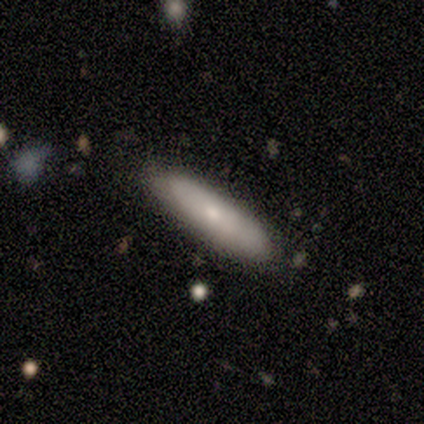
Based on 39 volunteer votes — A smooth galaxy with no disk features (54%) that is in between round and cigar-shaped (52%).

Vote fractions:
- Smooth or featured? smooth: 54% / featured or disk: 41% / star or artifact: 5%
- How rounded? in between: 52% / cigar-shaped: 48% / round: 0%
- Merging? none: 84% / minor disturbance: 11% / major disturbance: 3% / merger: 3%